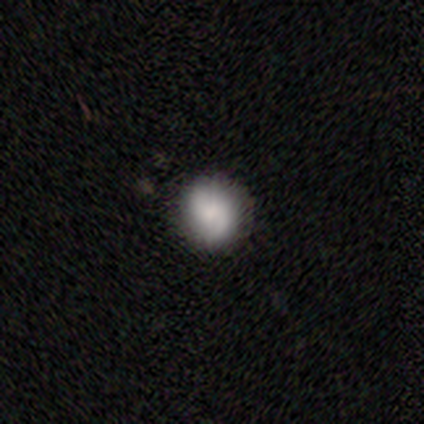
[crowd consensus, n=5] Morphology: type=smooth (60%); roundness=round (100%); merging=none (100%).